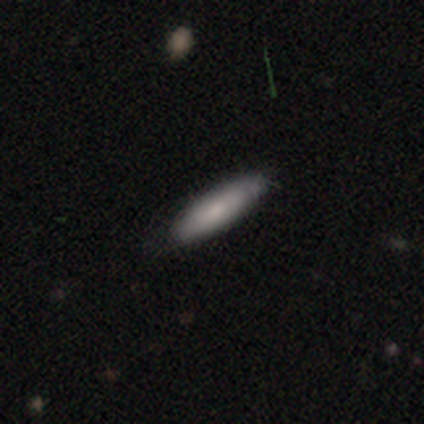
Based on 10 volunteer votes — A smooth galaxy with no disk features (80%) that is in between round and cigar-shaped (50%, tied with cigar-shaped).

Vote fractions:
- Smooth or featured? smooth: 80% / featured or disk: 20% / star or artifact: 0%
- How rounded? in between: 50% (tied) / cigar-shaped: 50% (tied) / round: 0%
- Merging? none: 100% / minor disturbance: 0% / major disturbance: 0% / merger: 0%